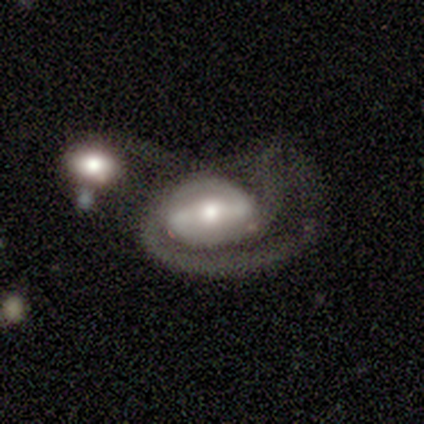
A featured or disk galaxy (75%) with a strong bar (67%), 1 (33%, tied with 2 and can't tell) tight (67%) spiral arms (100%) and a moderate central bulge (67%).

Vote fractions:
- Smooth or featured? featured or disk: 75% / smooth: 25% / star or artifact: 0%
- Edge-on disk? no: 100% / yes: 0%
- Bar? strong: 67% / no: 33% / weak: 0%
- Spiral arms? yes: 100% / no: 0%
- Spiral winding? tight: 67% / medium: 33% / loose: 0%
- Spiral arm count? 1: 33% (tied) / 2: 33% (tied) / can't tell: 33% (tied) / 3: 0% / 4: 0% / more than 4: 0%
- Bulge size? moderate: 67% / large: 33% / dominant: 0% / small: 0% / none: 0%
- Merging? merger: 75% / none: 25% / minor disturbance: 0% / major disturbance: 0%